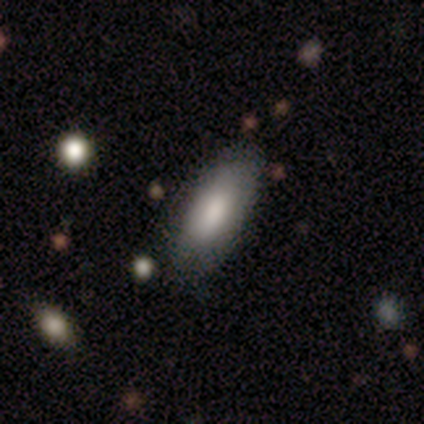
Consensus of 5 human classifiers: Overall: smooth (100%). How rounded: in between (100%). Merging: none (60%; minor disturbance 40%).